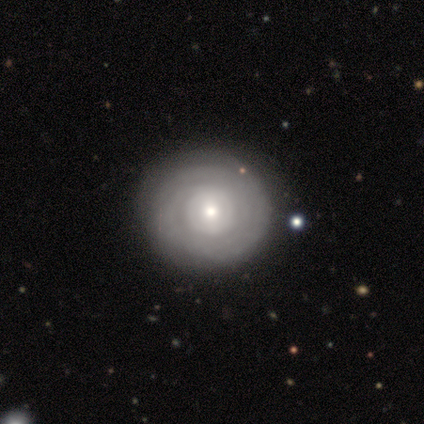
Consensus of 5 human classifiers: A featured or disk galaxy (80%) with no bar (75%), no spiral arms (75%) and a small central bulge (75%). Merging: none (80%).